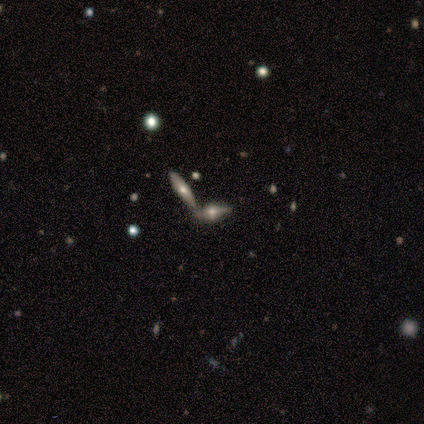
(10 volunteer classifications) Smooth or featured? 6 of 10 (60%) said featured or disk. Edge-on disk? 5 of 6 (83%) said yes. Edge-on bulge? 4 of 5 (80%) said rounded. Merging? 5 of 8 (62%) said none.